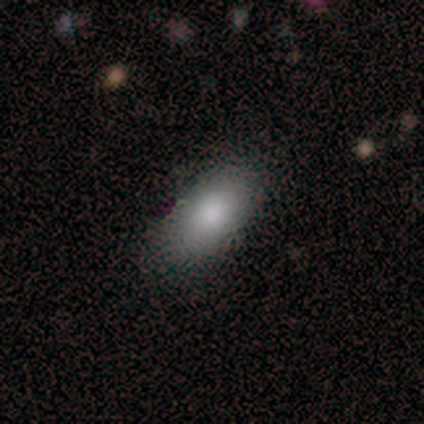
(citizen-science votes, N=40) smooth 85%, featured or disk 8%, star or artifact 8%. Down the decision tree: how rounded — in between (97%); merging — none (49%).